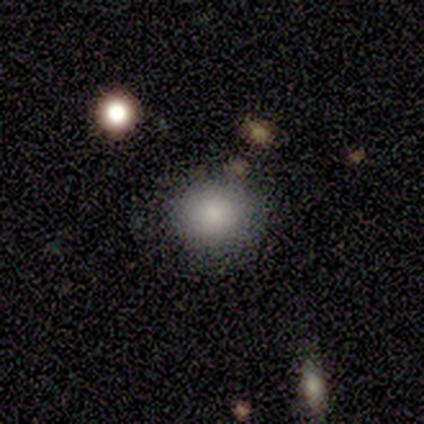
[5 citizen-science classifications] Overall: smooth (60%; featured or disk 40%). How rounded: round (67%; in between 33%). Merging: none (60%; major disturbance 20%).